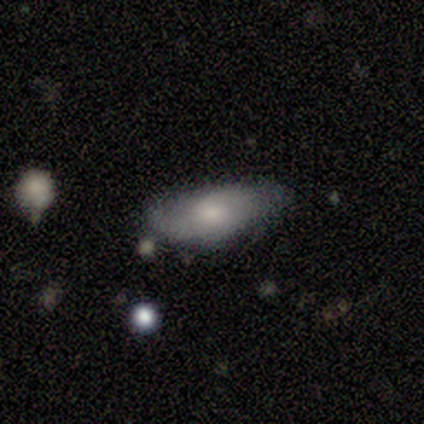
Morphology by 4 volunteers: Smooth or featured? 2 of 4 (50%, tied with featured or disk) said smooth. How rounded? 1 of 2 (50%, tied with cigar-shaped) said in between. Merging? 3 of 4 (75%) said none.